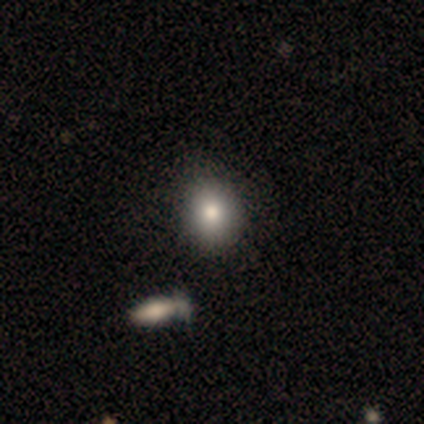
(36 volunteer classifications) A smooth galaxy with no disk features (72%) that is round (58%).

Vote fractions:
- Smooth or featured? smooth: 72% / star or artifact: 17% / featured or disk: 11%
- How rounded? round: 58% / in between: 38% / cigar-shaped: 4%
- Merging? none: 87% / merger: 7% / minor disturbance: 3% / major disturbance: 3%